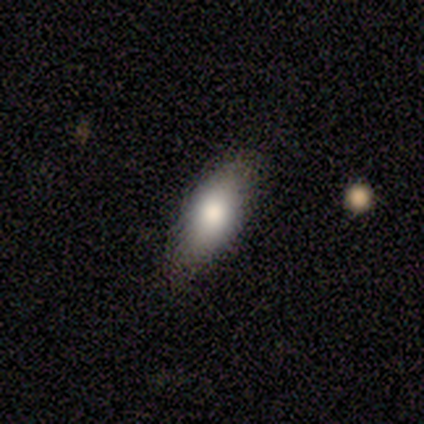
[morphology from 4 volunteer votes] smooth-or-featured: smooth: 75% | featured or disk: 25% | star or artifact: 0%
  how-rounded: in between: 67% | cigar-shaped: 33% | round: 0%
  merging: none: 75% | minor disturbance: 25% | major disturbance: 0% | merger: 0%